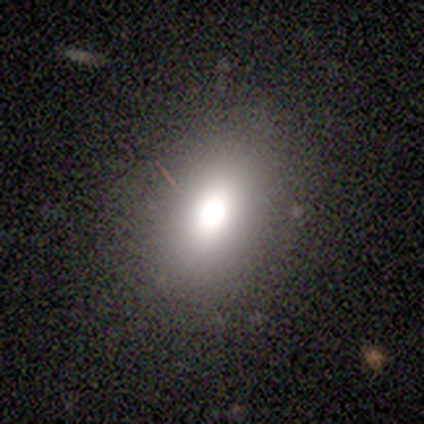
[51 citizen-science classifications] This is likely a smooth galaxy (78%). How rounded: likely in between (75%). Merging: clearly none (87%).